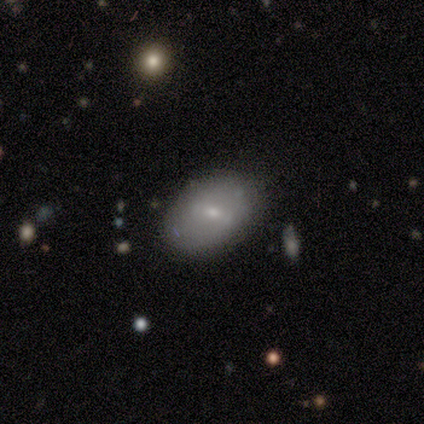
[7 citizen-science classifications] Smooth or featured? smooth (43%, tied with featured or disk)
How rounded? in between (100%)
Merging? none (83%)